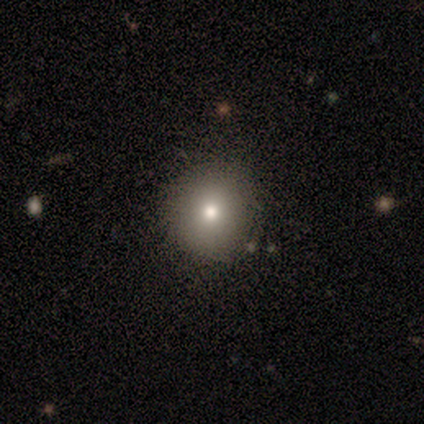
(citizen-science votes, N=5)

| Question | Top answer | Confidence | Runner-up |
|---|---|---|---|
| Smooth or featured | smooth | 100% | — |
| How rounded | round | 100% | — |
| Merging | none | 100% | — |